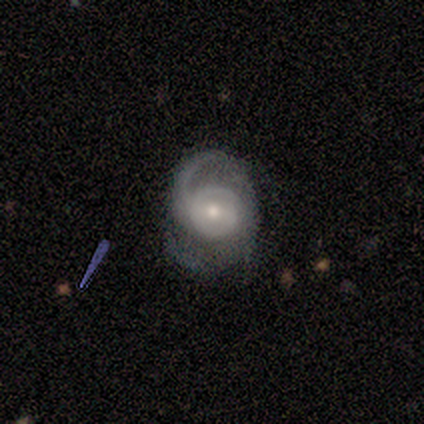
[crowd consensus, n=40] A featured or disk galaxy (98%) with a weak bar (51%), 2 (63%) medium (58%) spiral arms (97%) and a moderate central bulge (74%). Merging: none (45%).